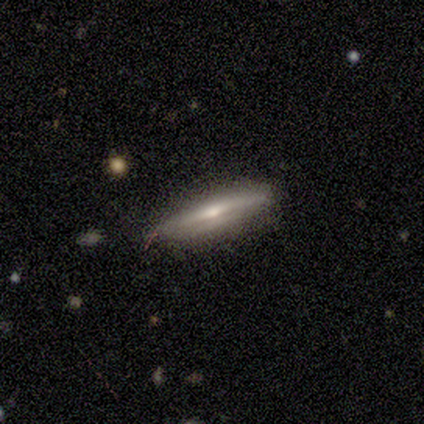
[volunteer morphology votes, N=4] This is likely a smooth galaxy (75%). How rounded: likely cigar-shaped (67%). Merging: clearly none (100%).